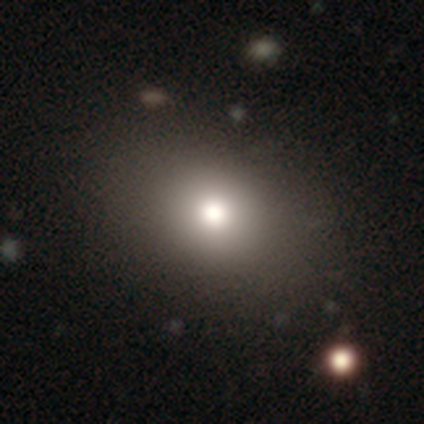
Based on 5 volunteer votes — Smooth or featured: smooth — 60% (star or artifact — 40%)
How rounded: round — 67% (in between — 33%)
Merging: none — 67% (major disturbance — 33%)